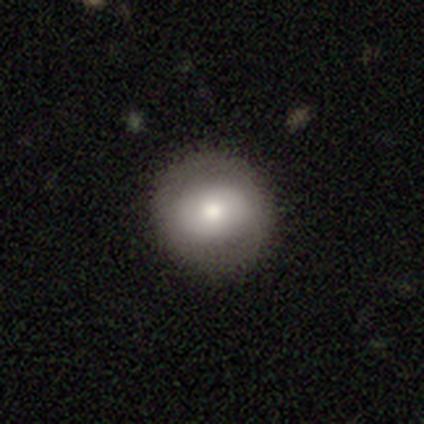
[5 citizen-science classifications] Smooth or featured? featured or disk (60%)
Edge-on disk? no (100%)
Bar? strong (33%, tied with weak and no)
Spiral arms? yes (67%)
Spiral winding? tight (50%, tied with medium)
Spiral arm count? 2 (100%)
Bulge size? moderate (100%)
Merging? none (80%)